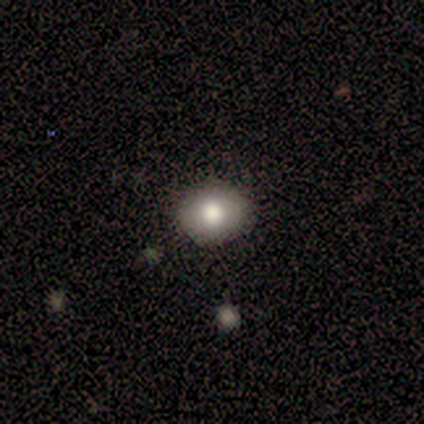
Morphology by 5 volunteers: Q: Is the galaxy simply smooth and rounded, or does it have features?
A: smooth — 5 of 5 (100%).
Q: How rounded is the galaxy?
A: round — 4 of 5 (80%).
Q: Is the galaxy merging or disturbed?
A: none — 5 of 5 (100%).